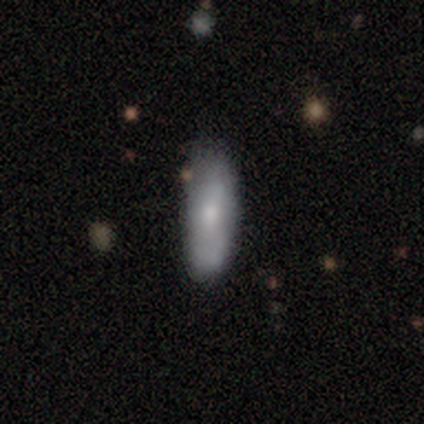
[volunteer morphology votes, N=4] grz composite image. It shows a smooth galaxy with no disk features (75%) that is in between round and cigar-shaped (67%). Merging: none (75%).